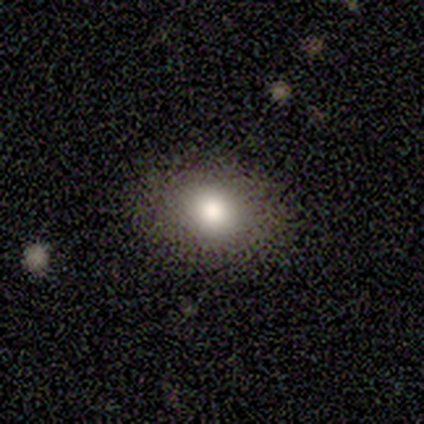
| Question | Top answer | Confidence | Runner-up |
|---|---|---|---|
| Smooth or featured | smooth | 40% | tied: star or artifact (40%) |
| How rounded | round | 50% | tied: in between (50%) |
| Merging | none | 100% | — |